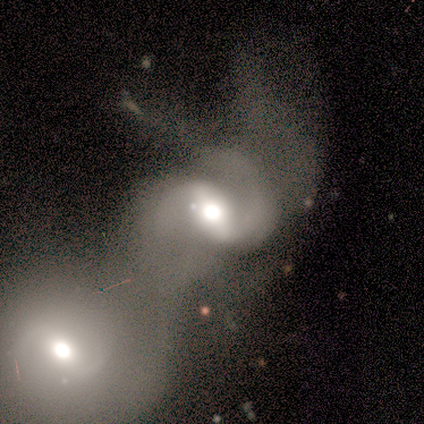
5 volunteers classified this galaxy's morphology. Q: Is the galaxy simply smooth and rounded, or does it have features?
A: featured or disk — 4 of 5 (80%).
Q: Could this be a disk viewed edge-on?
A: no — 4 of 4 (100%).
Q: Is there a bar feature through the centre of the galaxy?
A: strong — 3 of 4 (75%).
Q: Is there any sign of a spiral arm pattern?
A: yes — 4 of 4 (100%).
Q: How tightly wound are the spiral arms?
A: medium — 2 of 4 (50%).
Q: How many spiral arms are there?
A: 2 — 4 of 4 (100%).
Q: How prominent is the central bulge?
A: moderate — 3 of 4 (75%).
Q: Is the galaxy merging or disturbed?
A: major disturbance — 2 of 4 (50%).